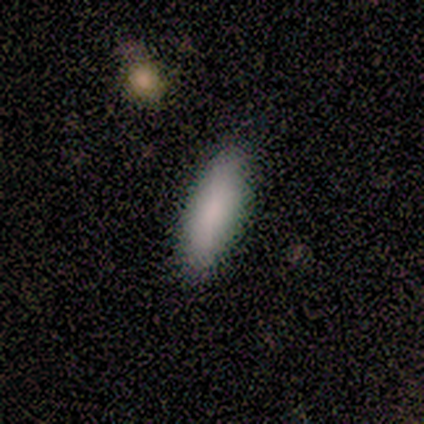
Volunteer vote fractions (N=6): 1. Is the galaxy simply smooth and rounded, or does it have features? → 100% smooth, 0% featured or disk, 0% star or artifact.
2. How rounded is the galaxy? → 50% in between (tied), 50% cigar-shaped (tied), 0% round.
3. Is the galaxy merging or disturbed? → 83% none, 17% minor disturbance, 0% major disturbance, 0% merger.